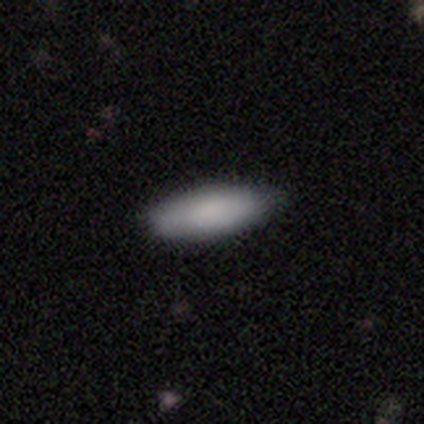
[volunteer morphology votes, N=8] This appears to be a smooth galaxy with no disk features (100%) that is in between round and cigar-shaped (62%). Merging: none (100%).